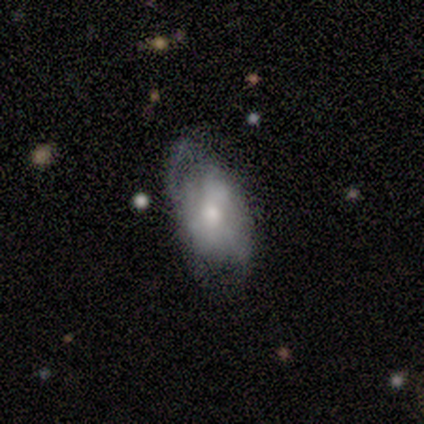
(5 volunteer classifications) Q: Smooth or featured?
A: smooth (100%)
Q: How rounded?
A: in between (80%); runner-up: round (20%)
Q: Merging?
A: minor disturbance (40%); tied with: major disturbance (40%)